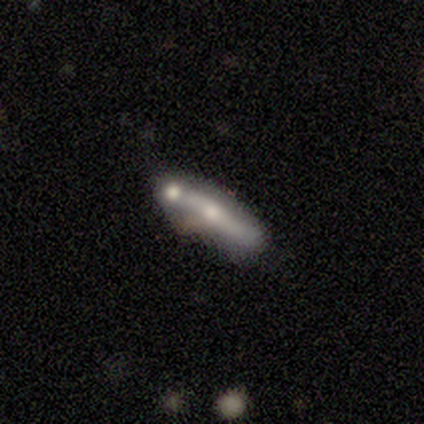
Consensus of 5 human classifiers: Smooth or featured? smooth (80%)
How rounded? in between (50%)
Merging? none (40%, tied with major disturbance)